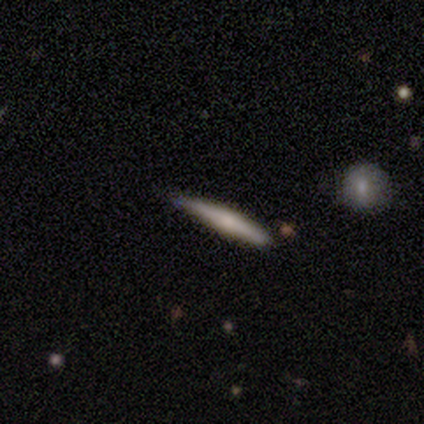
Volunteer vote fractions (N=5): Q: Smooth or featured?
A: featured or disk (80%); runner-up: smooth (20%)
Q: Edge-on disk?
A: yes (100%)
Q: Edge-on bulge?
A: rounded (100%)
Q: Merging?
A: none (80%); runner-up: minor disturbance (20%)